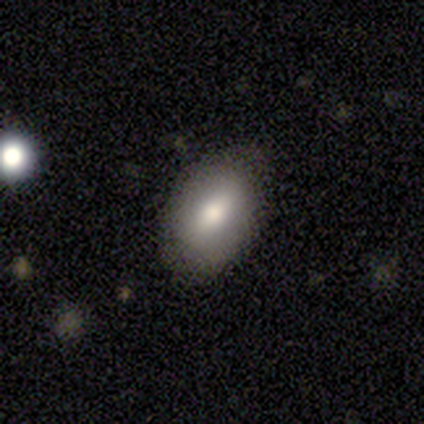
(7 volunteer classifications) smooth_or_featured: smooth (p=1.00)
how_rounded: in between (p=0.86) [alt: round p=0.14]
merging: none (p=0.71) [alt: minor disturbance p=0.29]